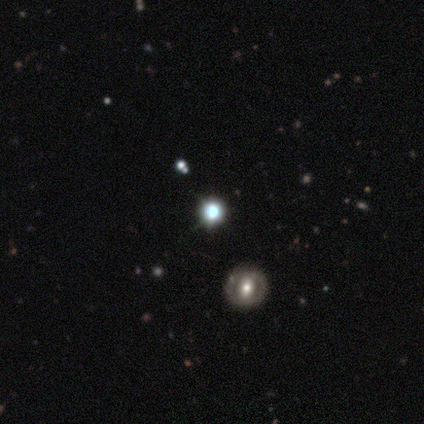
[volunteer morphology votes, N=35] Smooth or featured? 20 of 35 (57%) said star or artifact.